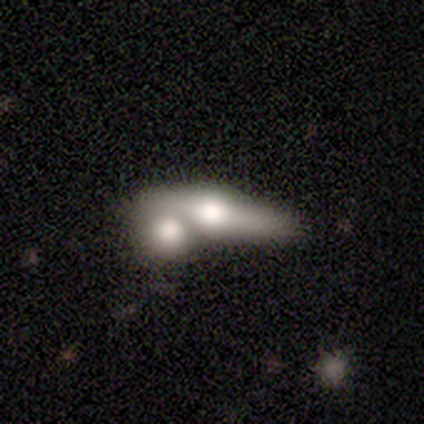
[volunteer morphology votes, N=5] Volunteers were most divided on "smooth or featured": featured or disk: 60%, smooth: 40%, star or artifact: 0%. More confident: edge-on bulge — rounded (100%); edge-on disk — yes (67%); merging — merger (60%).